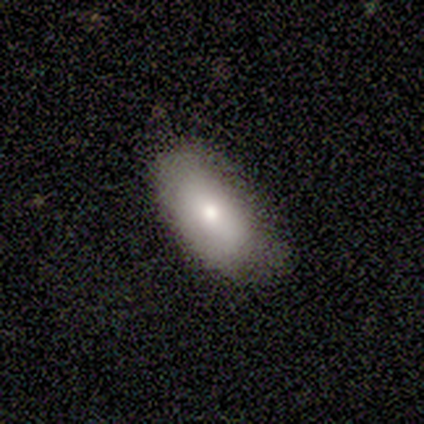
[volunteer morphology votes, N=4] A smooth galaxy with no disk features (100%) that is in between round and cigar-shaped (100%). Merging: none (75%).